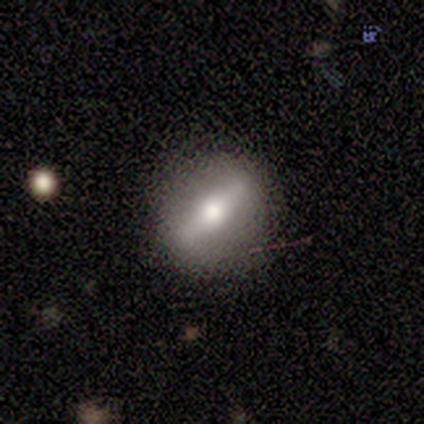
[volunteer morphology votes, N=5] Q: Smooth or featured?
A: featured or disk (80%); runner-up: smooth (20%)
Q: Edge-on disk?
A: yes (75%); runner-up: no (25%)
Q: Edge-on bulge?
A: rounded (100%)
Q: Merging?
A: none (60%); runner-up: major disturbance (40%)